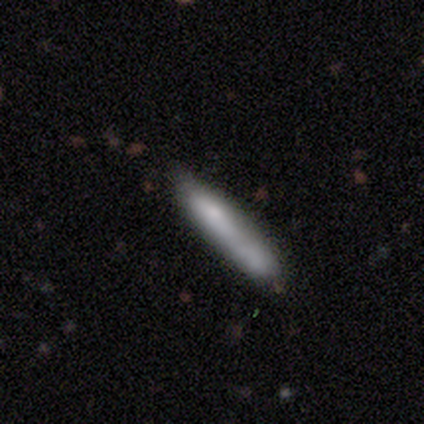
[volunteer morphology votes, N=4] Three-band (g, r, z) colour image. It shows a smooth galaxy with no disk features (75%) that is cigar-shaped (67%). Merging: none (25%, tied with minor disturbance, major disturbance and merger).